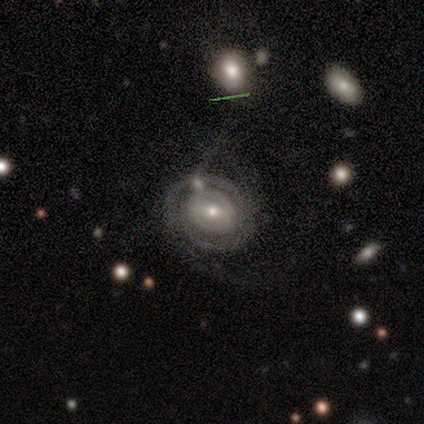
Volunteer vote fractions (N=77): Smooth or featured? featured or disk (88%)
Edge-on disk? no (100%)
Bar? weak (57%)
Spiral arms? yes (74%)
Spiral winding? tight (62%)
Spiral arm count? can't tell (44%)
Bulge size? moderate (56%)
Merging? none (18%)